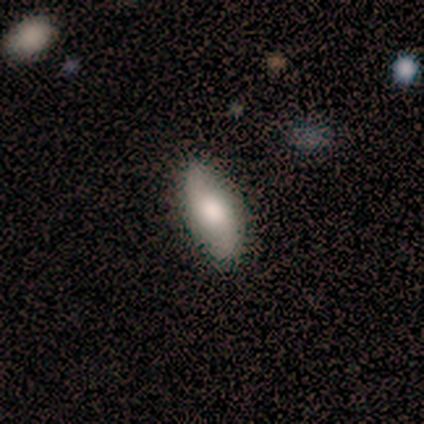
Volunteers were most divided on "bulge size" (2-way tie): large: 50%, moderate: 50%, dominant: 0%, small: 0%, none: 0%. More confident: edge-on disk — no (100%); spiral arm count — 2 (100%); merging — none (100%); bar — no (75%); spiral arms — yes (75%); spiral winding — loose (67%); smooth or featured — featured or disk (57%).